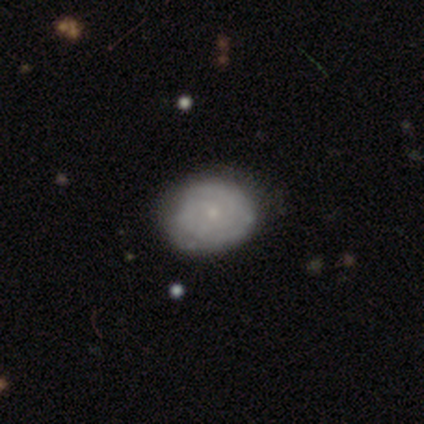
Smooth or featured? 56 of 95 (59%) said featured or disk. Edge-on disk? 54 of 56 (96%) said no. Bar? 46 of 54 (85%) said no. Spiral arms? 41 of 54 (76%) said yes. Spiral winding? 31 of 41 (76%) said tight. Spiral arm count? 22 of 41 (54%) said can't tell. Bulge size? 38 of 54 (70%) said small. Merging? 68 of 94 (72%) said none.